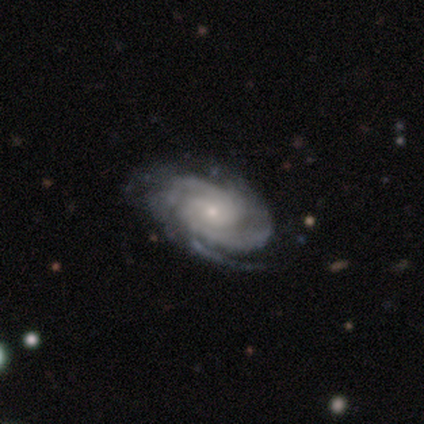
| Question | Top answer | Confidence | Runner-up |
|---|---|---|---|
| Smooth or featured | featured or disk | 96% | smooth (2%) |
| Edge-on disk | no | 96% | yes (4%) |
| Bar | no | 74% | weak (15%) |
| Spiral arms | yes | 98% | no (2%) |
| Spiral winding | tight | 82% | medium (13%) |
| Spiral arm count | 3 | 40% | 2 (36%) |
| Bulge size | small | 83% | moderate (15%) |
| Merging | none | 80% | minor disturbance (16%) |